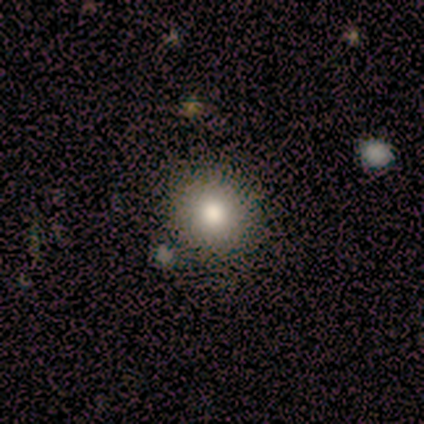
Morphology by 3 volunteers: Smooth or featured?
  - smooth: 100% *
  - featured or disk: 0%
  - star or artifact: 0%
How rounded?
  - round: 100% *
  - in between: 0%
  - cigar-shaped: 0%
Merging?
  - none: 67% *
  - merger: 33%
  - minor disturbance: 0%
  - major disturbance: 0%